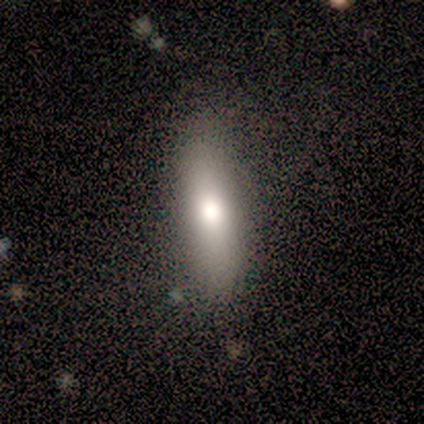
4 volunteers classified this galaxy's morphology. Smooth or featured? 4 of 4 (100%) said smooth. How rounded? 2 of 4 (50%, tied with cigar-shaped) said in between. Merging? 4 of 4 (100%) said none.